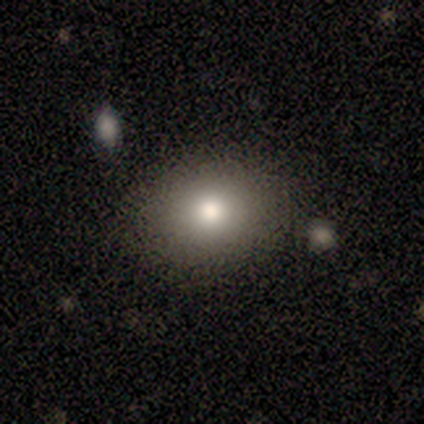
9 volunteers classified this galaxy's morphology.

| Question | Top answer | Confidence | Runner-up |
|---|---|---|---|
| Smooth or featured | smooth | 89% | featured or disk (11%) |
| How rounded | round | 62% | in between (38%) |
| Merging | none | 89% | minor disturbance (11%) |